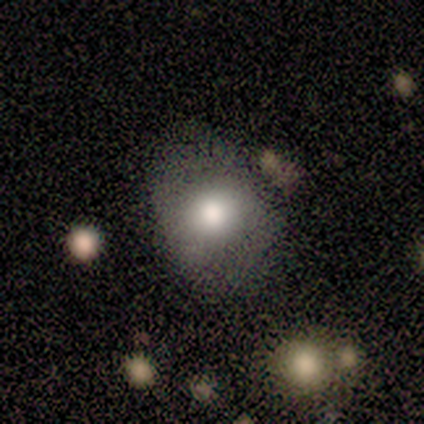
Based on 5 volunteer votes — Smooth or featured?
  - smooth: 80% *
  - star or artifact: 20%
  - featured or disk: 0%
How rounded?
  - round: 100% *
  - in between: 0%
  - cigar-shaped: 0%
Merging?
  - none: 75% *
  - minor disturbance: 25%
  - major disturbance: 0%
  - merger: 0%